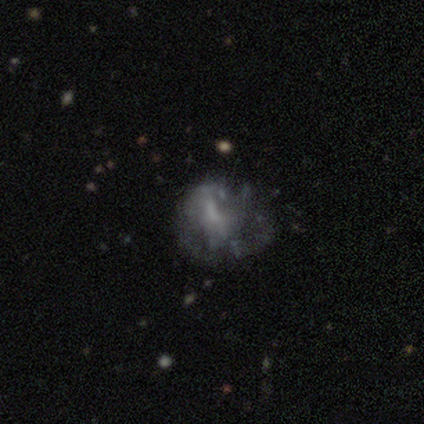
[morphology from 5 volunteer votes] Smooth or featured: featured or disk — 100%
Edge-on disk: no — 100%
Bar: no — 100%
Spiral arms: no — 60% (yes — 40%)
Bulge size: none — 80% (moderate — 20%)
Merging: none — 60% (major disturbance — 40%)